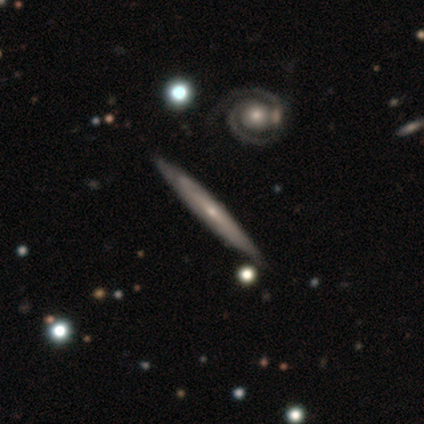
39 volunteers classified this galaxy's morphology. This appears to be a featured or disk galaxy (90%) viewed edge-on (77%) with a rounded central bulge (48%). Merging: none (64%).